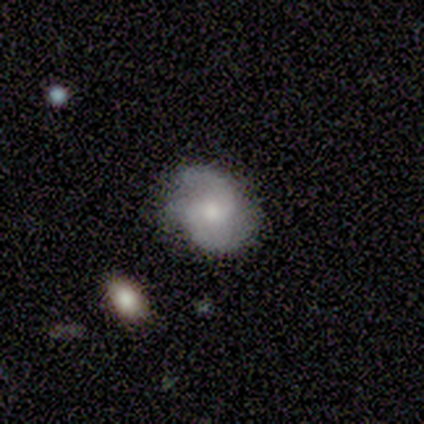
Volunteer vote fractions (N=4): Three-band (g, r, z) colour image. It shows a featured or disk galaxy (75%) with a weak bar (50%, tied with no), 2 (100%) tight (50%, tied with medium) spiral arms (100%) and a small central bulge (100%). Merging: minor disturbance (50%).